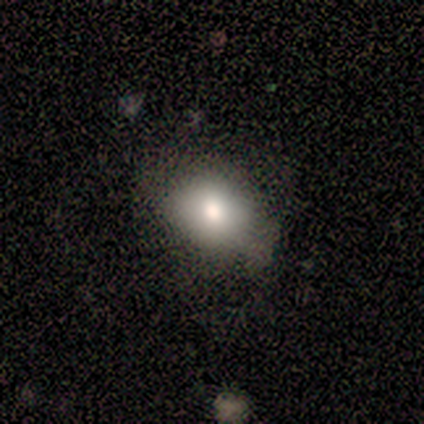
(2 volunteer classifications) Volunteers were most divided on "smooth or featured" (2-way tie): smooth: 50%, star or artifact: 50%, featured or disk: 0%. More confident: how rounded — round (100%); merging — none (100%).